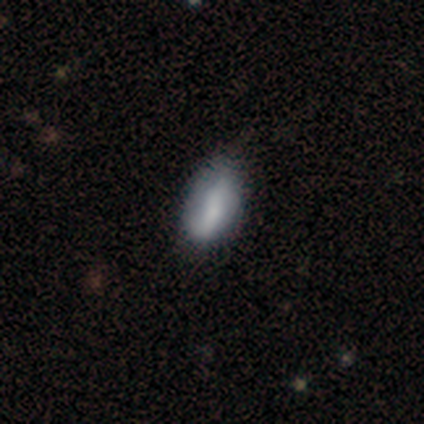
Smooth or featured? 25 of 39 (64%) said smooth. How rounded? 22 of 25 (88%) said in between. Merging? 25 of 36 (69%) said none.